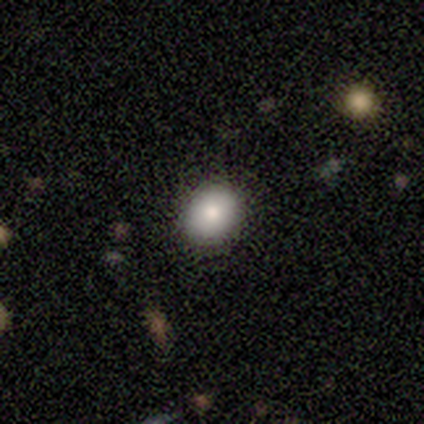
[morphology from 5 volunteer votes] This is clearly a smooth galaxy (100%). How rounded: likely in between (60%). Merging: likely none (60%).